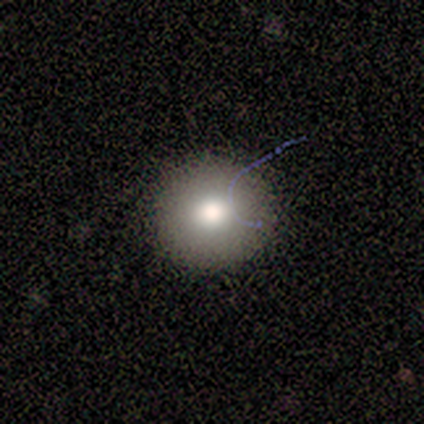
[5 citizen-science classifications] A smooth galaxy with no disk features (100%) that is round (100%). Merging: none (100%).